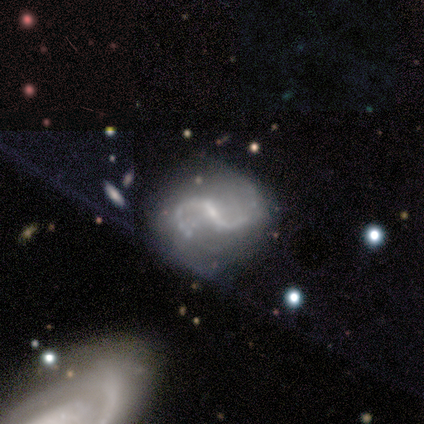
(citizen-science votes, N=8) smooth-or-featured: featured or disk: 100% | smooth: 0% | star or artifact: 0%
  disk-edge-on: no: 100% | yes: 0%
    bar: strong: 38% (tied) | no: 38% (tied) | weak: 25%
    has-spiral-arms: yes: 100% | no: 0%
      spiral-winding: loose: 88% | medium: 12% | tight: 0%
      spiral-arm-count: 2: 100% | 1: 0% | 3: 0% | 4: 0% | more than 4: 0% | can't tell: 0%
    bulge-size: small: 75% | moderate: 12% | none: 12% | dominant: 0% | large: 0%
  merging: none: 62% | minor disturbance: 38% | major disturbance: 0% | merger: 0%